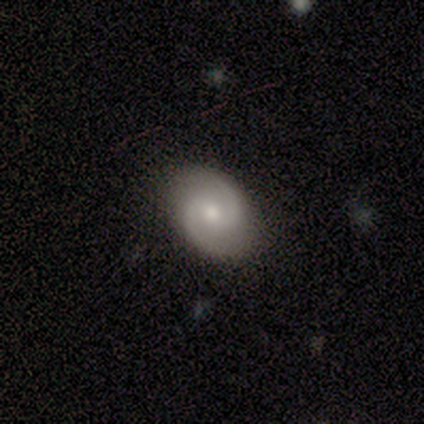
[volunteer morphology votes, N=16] This is likely a featured or disk galaxy (75%). It is clearly not viewed edge-on (100%). Bar: possibly no (58%). Spiral arm pattern: clearly yes (100%). Spiral arm count: clearly 2 (100%). Spiral winding: possibly medium (50%). Central bulge: clearly moderate (83%). Merging: clearly none (81%).